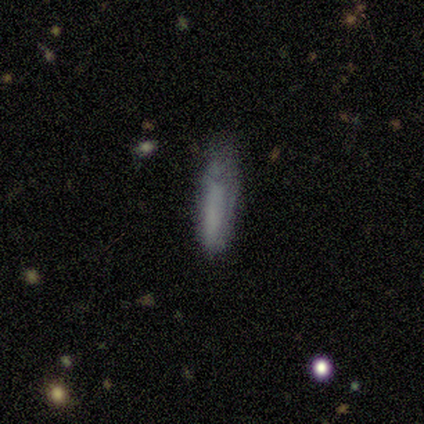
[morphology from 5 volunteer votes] This appears to be a smooth galaxy with no disk features (60%) that is cigar-shaped (100%). Merging: none (75%).